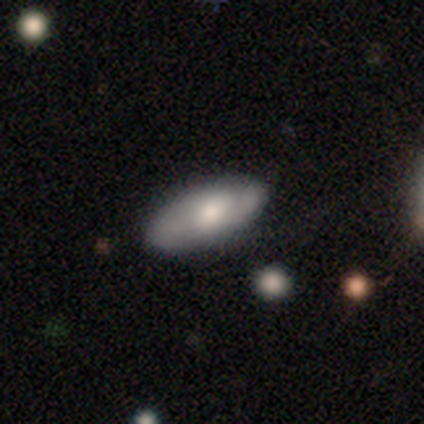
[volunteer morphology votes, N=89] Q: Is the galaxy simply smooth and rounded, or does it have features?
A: smooth — 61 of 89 (69%).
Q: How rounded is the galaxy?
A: in between — 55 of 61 (90%).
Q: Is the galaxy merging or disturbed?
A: none — 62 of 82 (76%).